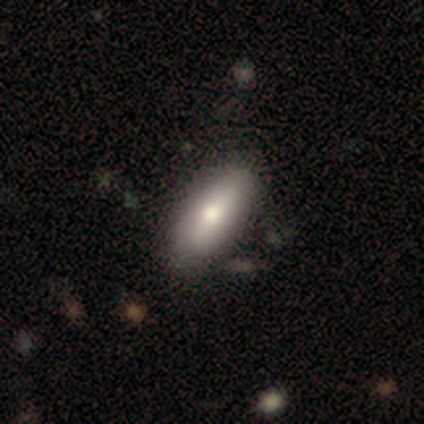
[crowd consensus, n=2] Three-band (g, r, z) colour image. It shows a smooth galaxy with no disk features (50%, tied with featured or disk) that is in between round and cigar-shaped (100%). Merging: none (50%, tied with minor disturbance).